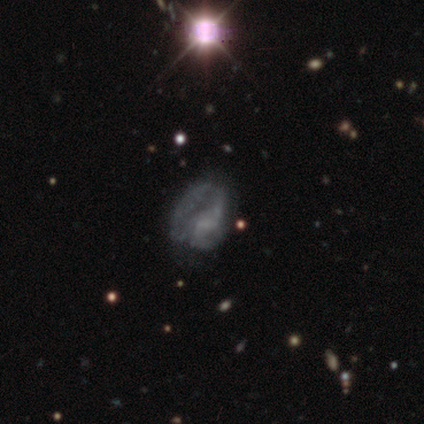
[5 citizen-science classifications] Q: Smooth or featured?
A: smooth (40%); tied with: featured or disk (40%)
Q: How rounded?
A: round (50%); tied with: in between (50%)
Q: Merging?
A: none (75%); runner-up: minor disturbance (25%)